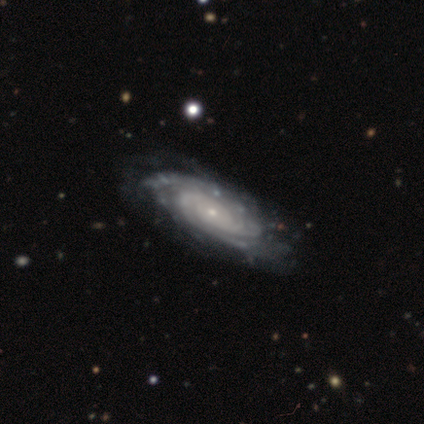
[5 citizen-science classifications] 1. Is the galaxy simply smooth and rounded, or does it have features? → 80% featured or disk, 20% star or artifact, 0% smooth.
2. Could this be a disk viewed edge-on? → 100% no, 0% yes.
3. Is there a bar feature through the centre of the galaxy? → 75% no, 25% weak, 0% strong.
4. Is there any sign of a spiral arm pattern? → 100% yes, 0% no.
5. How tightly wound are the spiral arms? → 100% tight, 0% medium, 0% loose.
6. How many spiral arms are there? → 50% 3, 25% more than 4, 25% can't tell, 0% 1, 0% 2, 0% 4.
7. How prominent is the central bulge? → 100% small, 0% dominant, 0% large, 0% moderate, 0% none.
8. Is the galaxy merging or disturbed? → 50% none (tied), 50% minor disturbance (tied), 0% major disturbance, 0% merger.